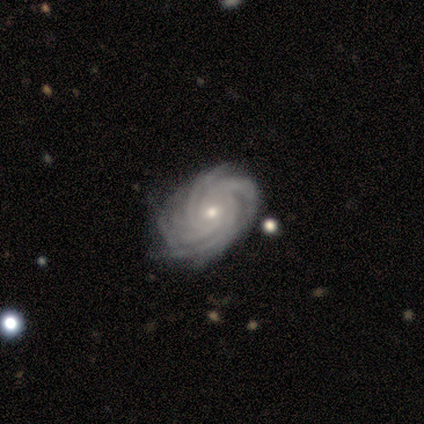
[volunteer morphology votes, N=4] type=featured or disk (100%); edge-on=no (100%); bar=no (50%); spiral arms=yes (100%); winding=tight (100%); arm count=more than 4 (75%); bulge=moderate (50%, tied with small); merging=none (75%).